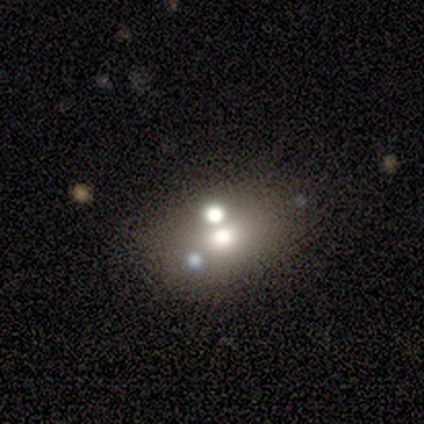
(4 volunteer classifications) smooth-or-featured: smooth: 75% | star or artifact: 25% | featured or disk: 0%
  how-rounded: in between: 67% | round: 33% | cigar-shaped: 0%
  merging: none: 33% (tied) | major disturbance: 33% (tied) | merger: 33% (tied) | minor disturbance: 0%